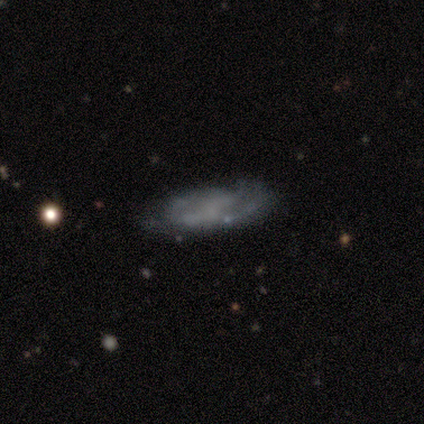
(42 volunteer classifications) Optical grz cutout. It shows a featured or disk galaxy (57%) with no bar (67%), no spiral arms (57%) and no central bulge (81%). Merging: none (47%).